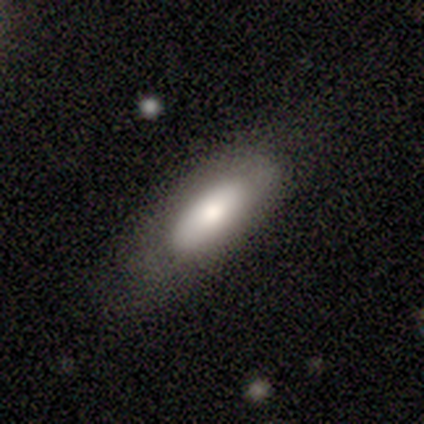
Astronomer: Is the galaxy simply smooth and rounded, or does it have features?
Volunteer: smooth — 73%.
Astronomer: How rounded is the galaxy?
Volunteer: in between — 70%.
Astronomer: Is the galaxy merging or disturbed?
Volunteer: none — 73%.